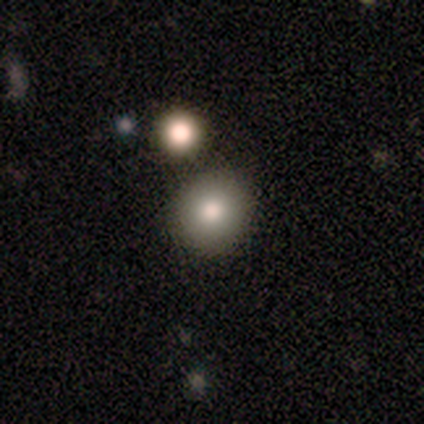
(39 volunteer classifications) Q: Smooth or featured?
A: smooth (79%); runner-up: featured or disk (10%)
Q: How rounded?
A: round (94%); runner-up: in between (6%)
Q: Merging?
A: none (94%); runner-up: major disturbance (3%)